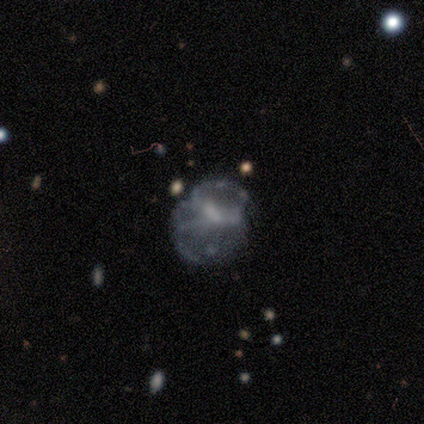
Smooth or featured? 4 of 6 (67%) said featured or disk. Edge-on disk? 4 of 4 (100%) said no. Bar? 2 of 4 (50%, tied with no) said weak. Spiral arms? 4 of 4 (100%) said no. Bulge size? 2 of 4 (50%) said small. Merging? 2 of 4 (50%) said none.